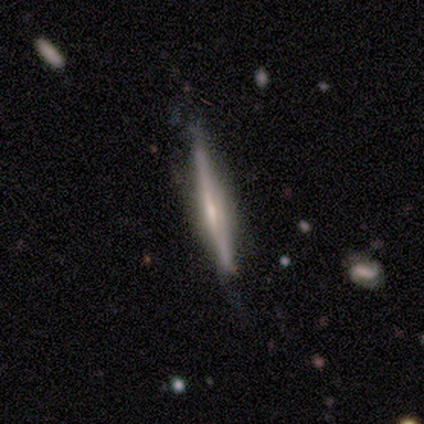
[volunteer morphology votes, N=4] Q: Smooth or featured?
A: featured or disk (100%)
Q: Edge-on disk?
A: yes (75%); runner-up: no (25%)
Q: Edge-on bulge?
A: none (67%); runner-up: boxy (33%)
Q: Merging?
A: none (75%); runner-up: major disturbance (25%)